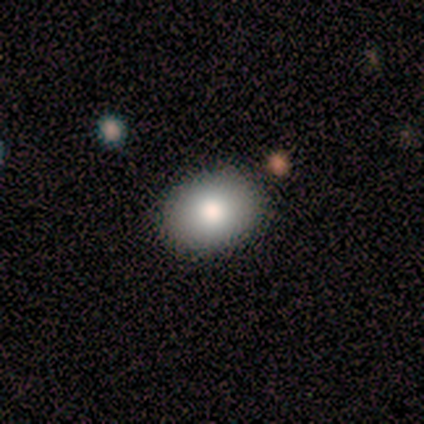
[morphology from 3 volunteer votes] Smooth or featured? 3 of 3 (100%) said smooth. How rounded? 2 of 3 (67%) said in between. Merging? 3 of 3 (100%) said none.